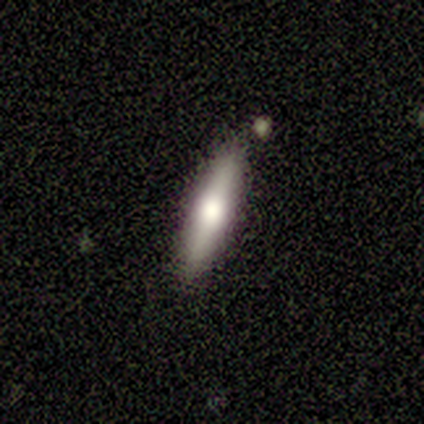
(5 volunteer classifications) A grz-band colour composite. It shows a featured or disk galaxy (80%) viewed edge-on (75%) with a rounded central bulge (100%). Merging: none (80%).